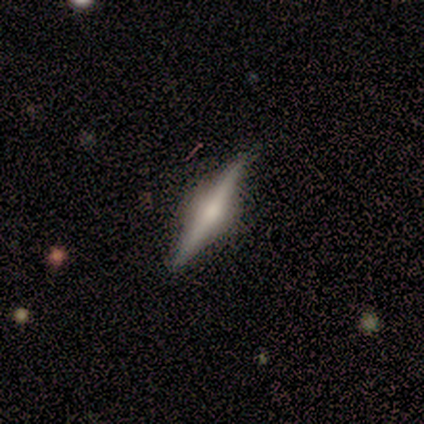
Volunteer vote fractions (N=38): Q: Smooth or featured?
A: featured or disk (84%); runner-up: smooth (13%)
Q: Edge-on disk?
A: yes (100%)
Q: Edge-on bulge?
A: rounded (91%); runner-up: boxy (9%)
Q: Merging?
A: none (76%); runner-up: minor disturbance (3%)